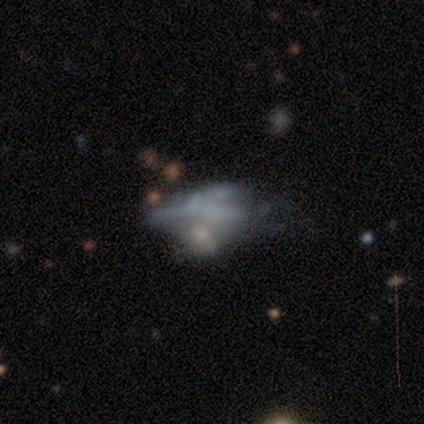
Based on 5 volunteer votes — This is likely a featured or disk galaxy (60%). It is clearly not viewed edge-on (100%). Bar: clearly no (100%). Spiral arm pattern: clearly no (100%). Central bulge: clearly none (100%). Merging: likely major disturbance (75%).